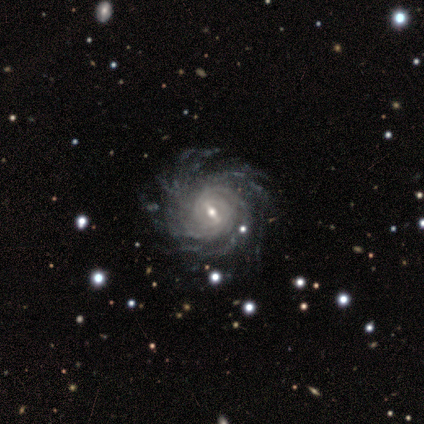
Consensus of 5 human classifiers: This appears to be a featured or disk galaxy (80%) with a strong bar (50%, tied with weak), more than 4 (75%) tight (75%) spiral arms (100%) and a moderate central bulge (50%, tied with small). Merging: none (100%).